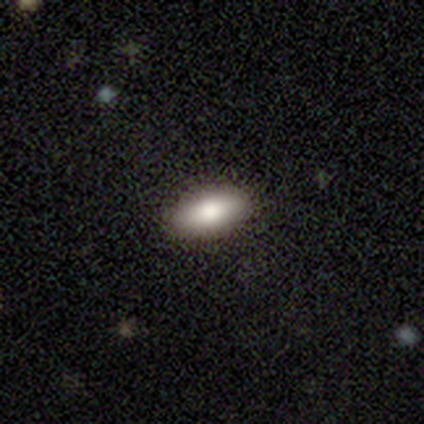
Smooth or featured? 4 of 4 (100%) said smooth. How rounded? 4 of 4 (100%) said in between. Merging? 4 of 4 (100%) said none.